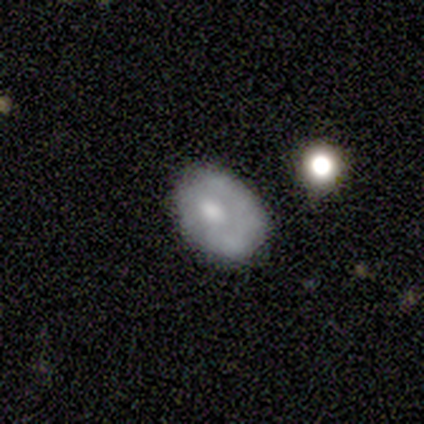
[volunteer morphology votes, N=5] This is likely a smooth galaxy (60%). How rounded: likely round (67%). Merging: possibly none (50%, tied with minor disturbance).